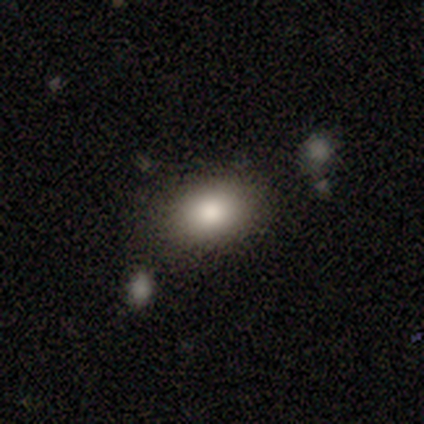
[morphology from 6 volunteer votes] Smooth or featured? smooth (67%)
How rounded? round (50%, tied with in between)
Merging? none (100%)